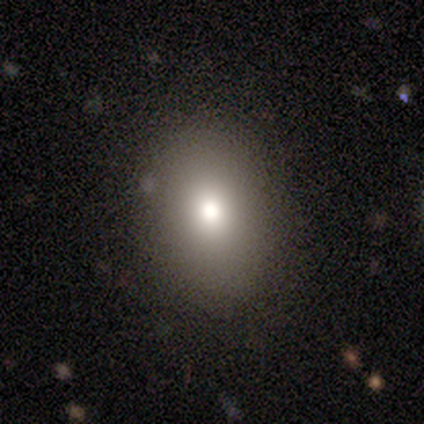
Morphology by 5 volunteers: A smooth galaxy with no disk features (60%) that is in between round and cigar-shaped (67%). Merging: none (100%).